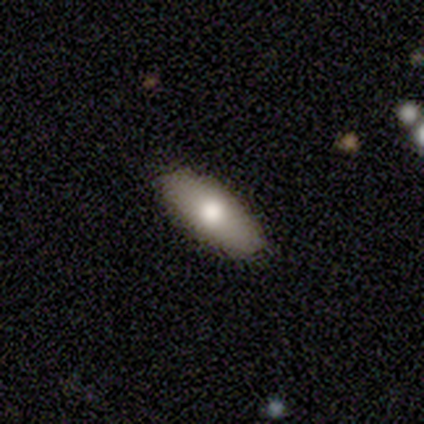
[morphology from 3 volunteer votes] type=smooth (67%); roundness=in between (100%); merging=none (100%).